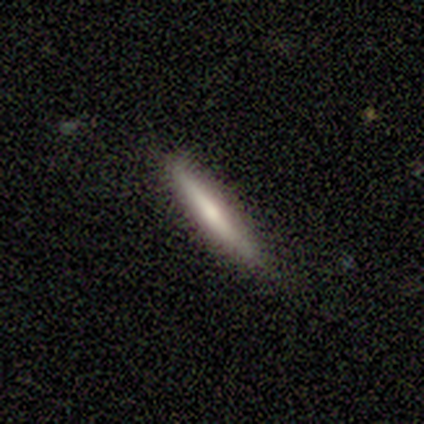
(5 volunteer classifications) smooth 60%, featured or disk 40%, star or artifact 0%. Down the decision tree: how rounded — cigar-shaped (100%); merging — none (100%).